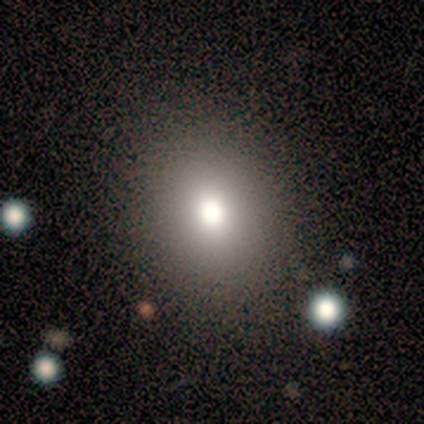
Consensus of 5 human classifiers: Smooth or featured? 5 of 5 (100%) said smooth. How rounded? 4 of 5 (80%) said round. Merging? 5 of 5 (100%) said none.